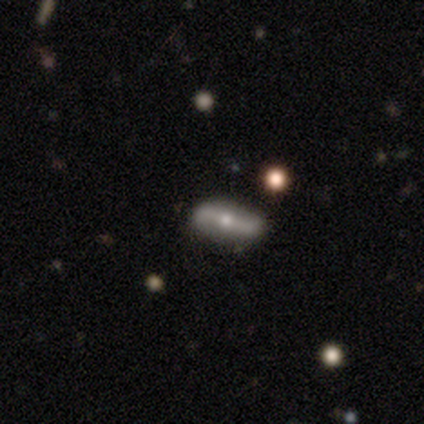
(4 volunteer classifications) Volunteers were most divided on "edge-on disk": no: 67%, yes: 33%. More confident: bar — no (100%); spiral arms — yes (100%); spiral winding — loose (100%); spiral arm count — 2 (100%); bulge size — moderate (100%); smooth or featured — featured or disk (75%); merging — none (75%).